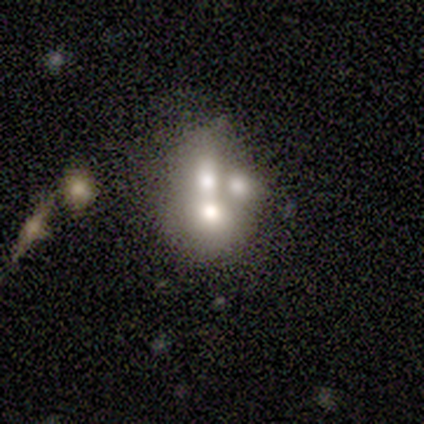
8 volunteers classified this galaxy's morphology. smooth 50% (tied), featured or disk 50% (tied), star or artifact 0%. Down the decision tree: how rounded — round (75%); merging — merger (75%).